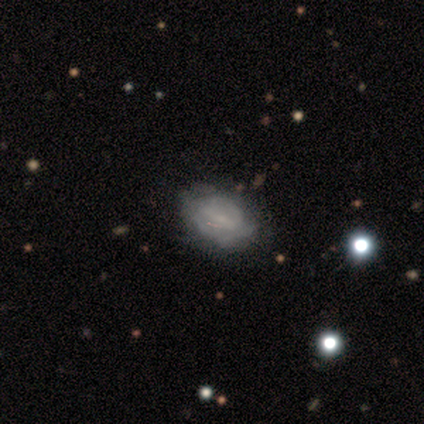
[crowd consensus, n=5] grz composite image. It shows a smooth galaxy with no disk features (60%) that is in between round and cigar-shaped (100%). Merging: none (80%).